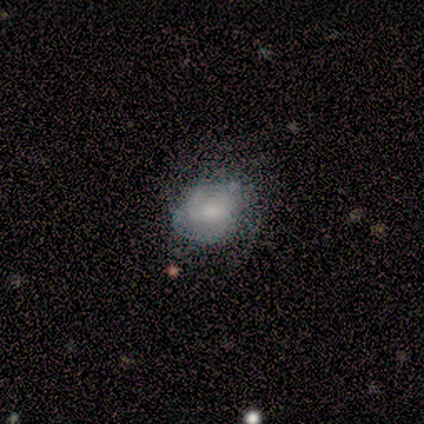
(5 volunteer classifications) Morphology: type=smooth (40%, tied with featured or disk); roundness=round (50%, tied with in between); merging=none (75%).